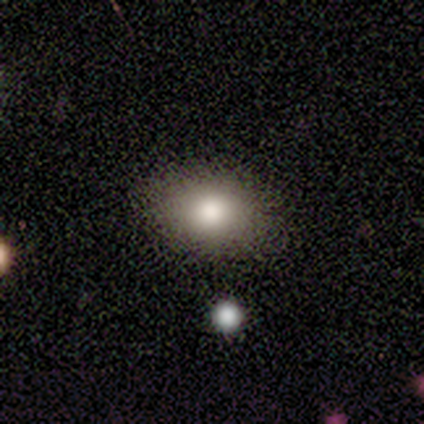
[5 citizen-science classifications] Smooth or featured?
  - smooth: 100% *
  - featured or disk: 0%
  - star or artifact: 0%
How rounded?
  - in between: 80% *
  - round: 20%
  - cigar-shaped: 0%
Merging?
  - none: 100% *
  - minor disturbance: 0%
  - major disturbance: 0%
  - merger: 0%